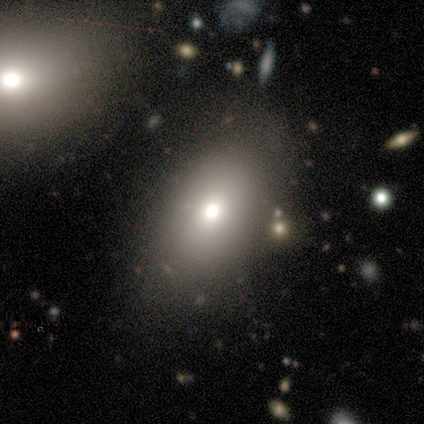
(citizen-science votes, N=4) smooth 100%, featured or disk 0%, star or artifact 0%. Down the decision tree: how rounded — round (50%, tied with in between); merging — none (75%).